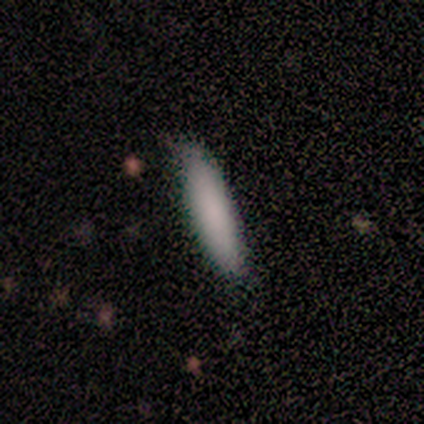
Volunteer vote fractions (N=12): Q: Smooth or featured?
A: smooth (92%); runner-up: featured or disk (8%)
Q: How rounded?
A: cigar-shaped (73%); runner-up: in between (27%)
Q: Merging?
A: none (75%); runner-up: minor disturbance (25%)